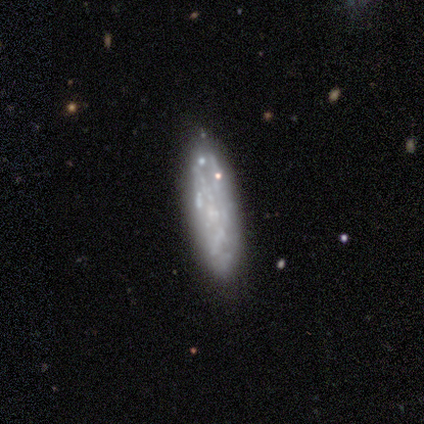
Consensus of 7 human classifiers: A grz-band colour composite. It shows a featured or disk galaxy (86%) with no bar (100%), loose (67%) spiral arms (75%) and no central bulge (75%). Merging: none (86%).